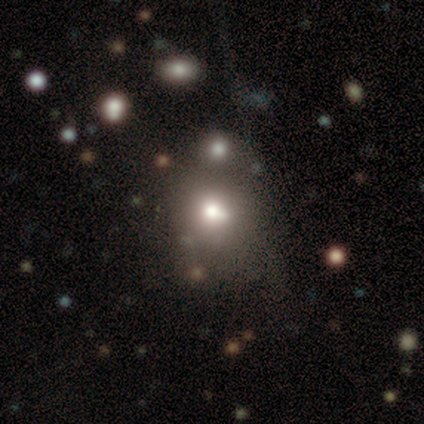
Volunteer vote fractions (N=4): Smooth or featured? 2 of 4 (50%) said featured or disk. Edge-on disk? 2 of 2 (100%) said no. Bar? 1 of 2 (50%, tied with no) said weak. Spiral arms? 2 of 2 (100%) said no. Bulge size? 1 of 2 (50%, tied with none) said small. Merging? 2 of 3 (67%) said none.